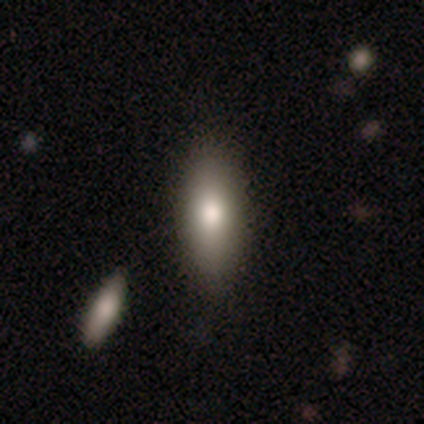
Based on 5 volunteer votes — Morphology: type=smooth (60%); roundness=in between (67%); merging=none (100%).